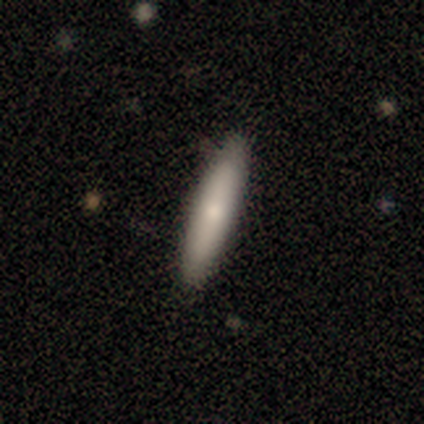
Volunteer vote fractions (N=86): Morphology: type=smooth (70%); roundness=cigar-shaped (95%); merging=none (86%).